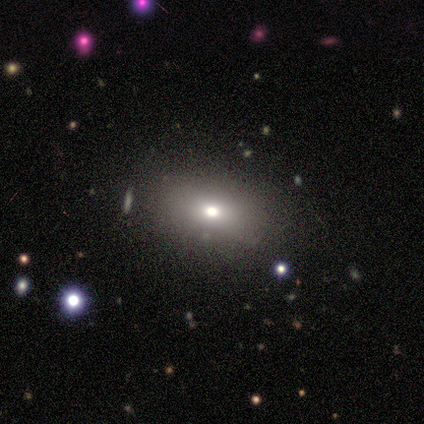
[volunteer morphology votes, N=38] type=smooth (68%); roundness=in between (81%); merging=none (94%).